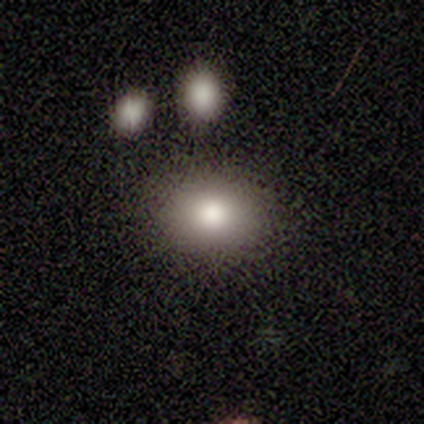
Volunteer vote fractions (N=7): smooth_or_featured: smooth (p=0.86) [alt: featured or disk p=0.14]
how_rounded: round (p=0.50) [tied with: in between p=0.50]
merging: none (p=0.86) [alt: minor disturbance p=0.14]